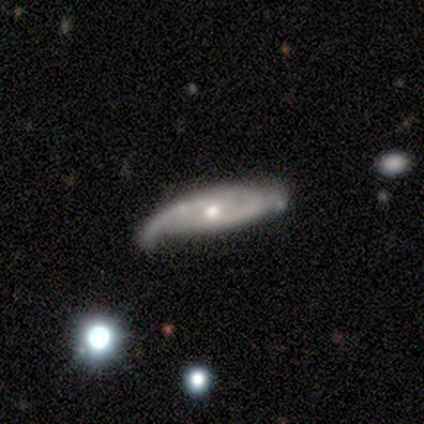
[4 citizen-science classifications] This appears to be a featured or disk galaxy (75%) with a weak bar (50%, tied with no), 2 (100%) loose (100%) spiral arms (50%, tied with no) and a moderate central bulge (50%, tied with small). Merging: minor disturbance (50%).